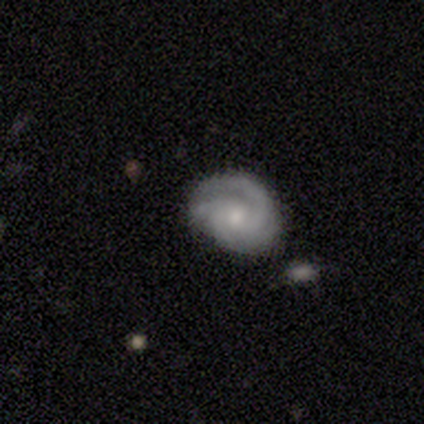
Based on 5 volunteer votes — A featured or disk galaxy (60%) with no bar (67%), 3 (50%, tied with 4) tight (50%, tied with loose) spiral arms (67%) and a small central bulge (67%).

Vote fractions:
- Smooth or featured? featured or disk: 60% / smooth: 40% / star or artifact: 0%
- Edge-on disk? no: 100% / yes: 0%
- Bar? no: 67% / weak: 33% / strong: 0%
- Spiral arms? yes: 67% / no: 33%
- Spiral winding? tight: 50% (tied) / loose: 50% (tied) / medium: 0%
- Spiral arm count? 3: 50% (tied) / 4: 50% (tied) / 1: 0% / 2: 0% / more than 4: 0% / can't tell: 0%
- Bulge size? small: 67% / moderate: 33% / dominant: 0% / large: 0% / none: 0%
- Merging? none: 60% / minor disturbance: 20% / major disturbance: 20% / merger: 0%